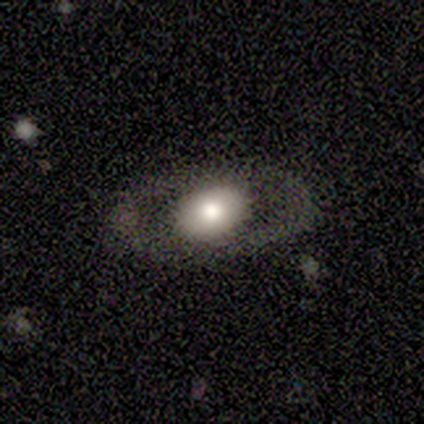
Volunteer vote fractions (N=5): Smooth or featured? featured or disk (60%)
Edge-on disk? no (67%)
Bar? no (100%)
Spiral arms? no (100%)
Bulge size? large (100%)
Merging? none (80%)